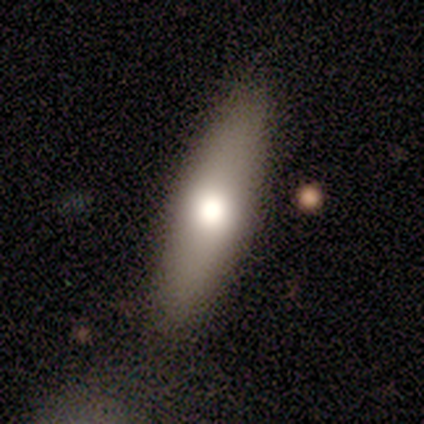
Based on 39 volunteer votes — Smooth or featured? smooth (74%)
How rounded? in between (52%)
Merging? none (59%)